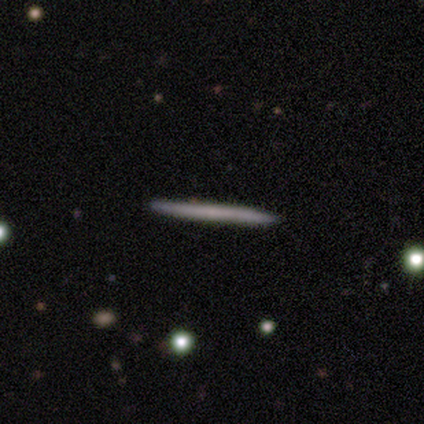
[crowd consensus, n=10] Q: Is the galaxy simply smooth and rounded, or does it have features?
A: featured or disk — 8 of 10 (80%).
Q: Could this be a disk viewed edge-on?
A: yes — 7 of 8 (88%).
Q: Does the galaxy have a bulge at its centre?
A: none — 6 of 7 (86%).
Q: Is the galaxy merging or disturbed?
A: none — 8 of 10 (80%).